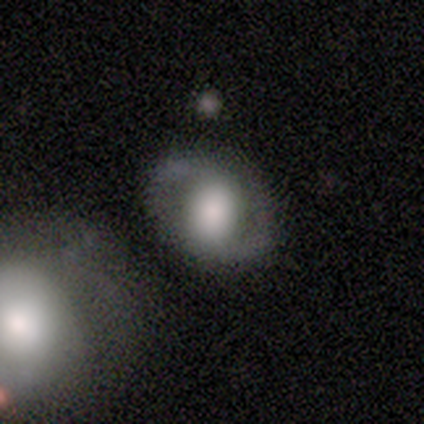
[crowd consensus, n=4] smooth_or_featured: smooth (p=0.75) [alt: featured or disk p=0.25]
how_rounded: round (p=0.67) [alt: in between p=0.33]
merging: none (p=1.00)